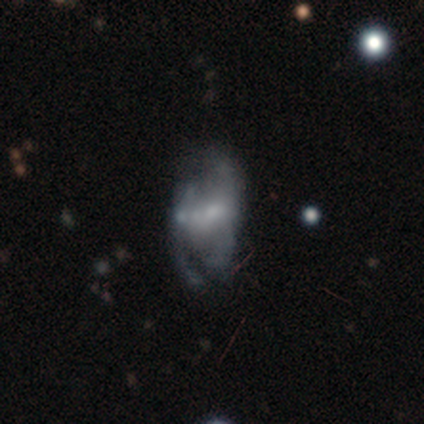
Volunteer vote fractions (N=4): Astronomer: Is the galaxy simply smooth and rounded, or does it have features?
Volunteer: featured or disk — 75%.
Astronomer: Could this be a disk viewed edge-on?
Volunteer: no — 100%.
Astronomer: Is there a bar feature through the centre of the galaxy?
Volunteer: no — 100%.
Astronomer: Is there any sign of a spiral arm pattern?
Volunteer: no — 100%.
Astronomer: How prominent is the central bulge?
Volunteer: none — 100%.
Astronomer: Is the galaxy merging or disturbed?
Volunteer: major disturbance — 50%.